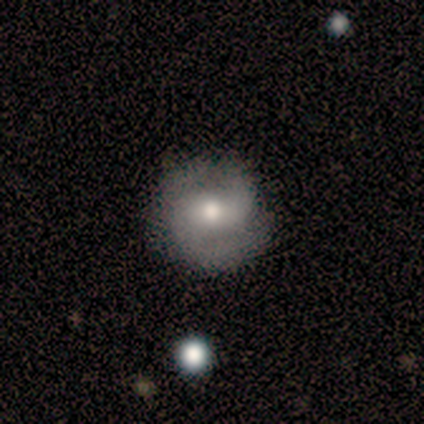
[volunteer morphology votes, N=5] smooth-or-featured: featured or disk: 60% | smooth: 40% | star or artifact: 0%
  disk-edge-on: no: 100% | yes: 0%
    bar: weak: 100% | strong: 0% | no: 0%
    has-spiral-arms: yes: 100% | no: 0%
      spiral-winding: loose: 67% | medium: 33% | tight: 0%
      spiral-arm-count: 2: 67% | can't tell: 33% | 1: 0% | 3: 0% | 4: 0% | more than 4: 0%
    bulge-size: moderate: 67% | small: 33% | dominant: 0% | large: 0% | none: 0%
  merging: none: 100% | minor disturbance: 0% | major disturbance: 0% | merger: 0%